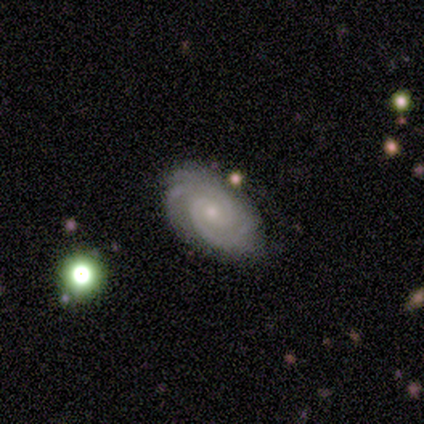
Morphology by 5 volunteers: Q: Smooth or featured?
A: featured or disk (80%); runner-up: smooth (20%)
Q: Edge-on disk?
A: no (100%)
Q: Bar?
A: weak (75%); runner-up: no (25%)
Q: Spiral arms?
A: yes (100%)
Q: Spiral winding?
A: tight (100%)
Q: Spiral arm count?
A: 2 (25%); tied with: 3 (25%); 4 (25%); can't tell (25%)
Q: Bulge size?
A: small (75%); runner-up: none (25%)
Q: Merging?
A: none (100%)